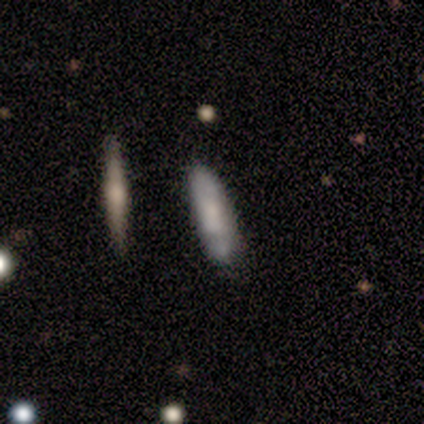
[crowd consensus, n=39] This appears to be a smooth galaxy with no disk features (46%) that is cigar-shaped (67%). Merging: none (71%).